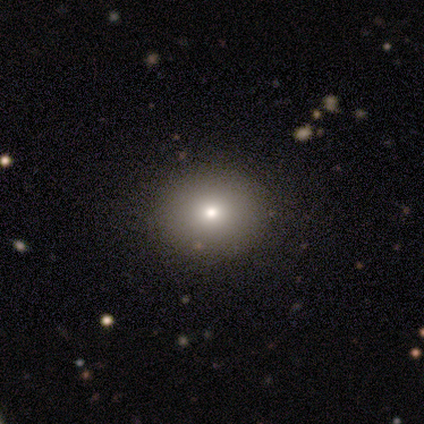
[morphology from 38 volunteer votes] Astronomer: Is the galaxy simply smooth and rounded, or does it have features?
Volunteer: smooth — 87%.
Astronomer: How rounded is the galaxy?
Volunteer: round — 64%.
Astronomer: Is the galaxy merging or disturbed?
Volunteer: none — 89%.